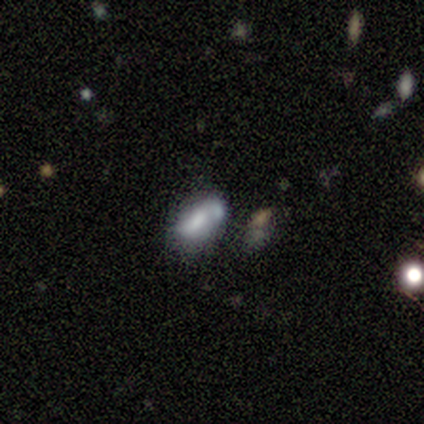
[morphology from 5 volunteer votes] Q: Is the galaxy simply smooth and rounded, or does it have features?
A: smooth — 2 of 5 (40%, tied with featured or disk).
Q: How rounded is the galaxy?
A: in between — 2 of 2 (100%).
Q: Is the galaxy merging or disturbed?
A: none — 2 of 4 (50%, tied with minor disturbance).